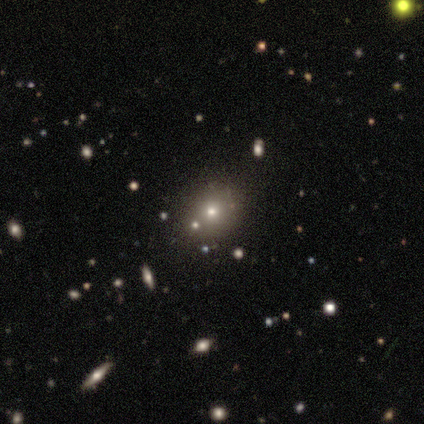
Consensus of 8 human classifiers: This is likely a smooth galaxy (75%). How rounded: clearly round (100%). Merging: clearly none (100%).